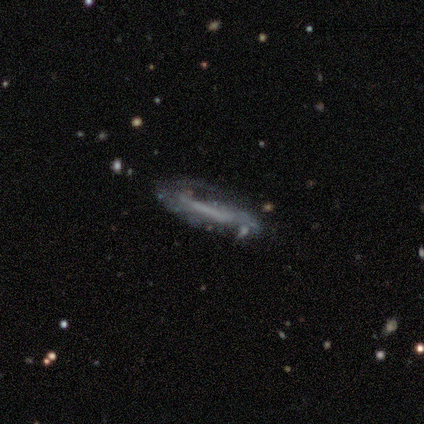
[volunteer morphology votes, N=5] smooth_or_featured: featured or disk (p=1.00)
disk_edge_on: no (p=0.60) [alt: yes p=0.40]
bar: no (p=0.67) [alt: strong p=0.33]
has_spiral_arms: no (p=0.67) [alt: yes p=0.33]
bulge_size: none (p=0.67) [alt: small p=0.33]
merging: none (p=0.80) [alt: merger p=0.20]